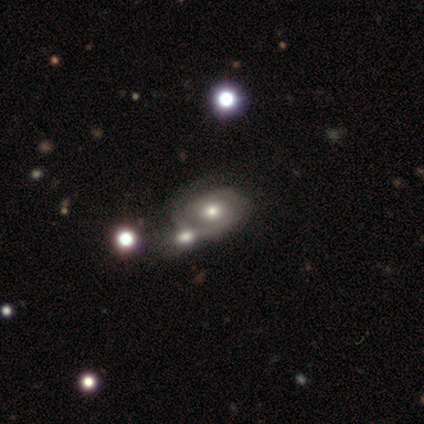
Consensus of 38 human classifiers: featured or disk 82%, smooth 18%, star or artifact 0%. Down the decision tree: edge-on disk — no (100%); bar — no (84%); spiral arms — yes (81%); spiral arm count — 2 (80%); spiral winding — tight (60%); bulge size — moderate (74%); merging — merger (42%).